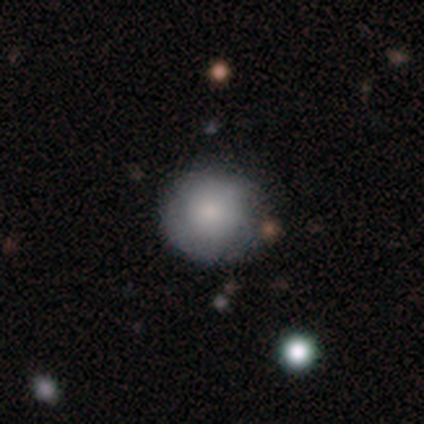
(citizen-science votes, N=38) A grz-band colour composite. It shows a smooth galaxy with no disk features (76%) that is round (93%). Merging: none (75%).